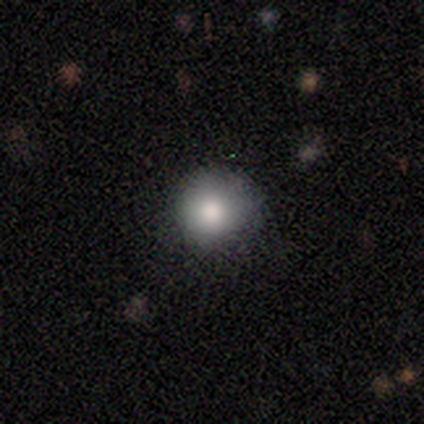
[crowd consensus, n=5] Smooth or featured: smooth — 100%
How rounded: round — 100%
Merging: none — 60% (minor disturbance — 40%)